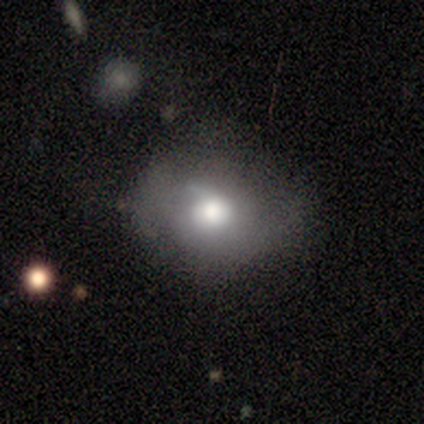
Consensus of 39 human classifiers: smooth 54%, featured or disk 41%, star or artifact 5%. Down the decision tree: how rounded — round (71%); merging — none (43%).